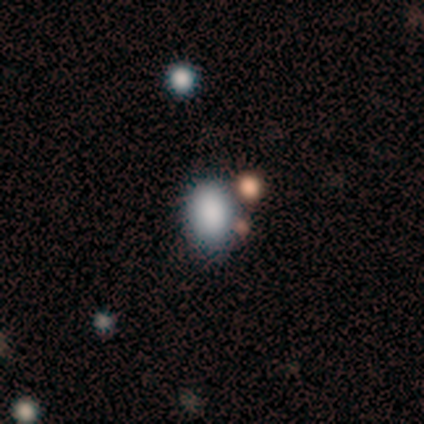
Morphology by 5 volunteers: Volunteers were most divided on "merging" (2-way tie): none: 40%, minor disturbance: 40%, major disturbance: 20%, merger: 0%. More confident: smooth or featured — smooth (100%); how rounded — in between (100%).